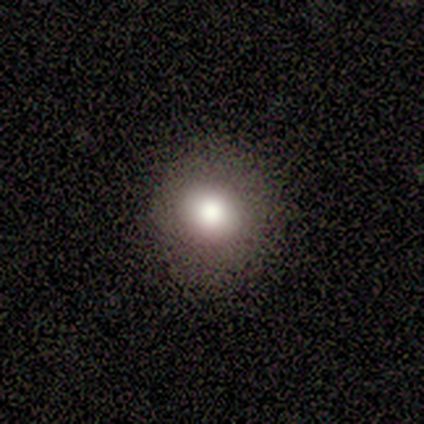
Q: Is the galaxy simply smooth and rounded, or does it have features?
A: smooth — 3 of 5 (60%).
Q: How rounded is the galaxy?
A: round — 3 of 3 (100%).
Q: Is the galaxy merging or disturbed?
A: minor disturbance — 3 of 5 (60%).